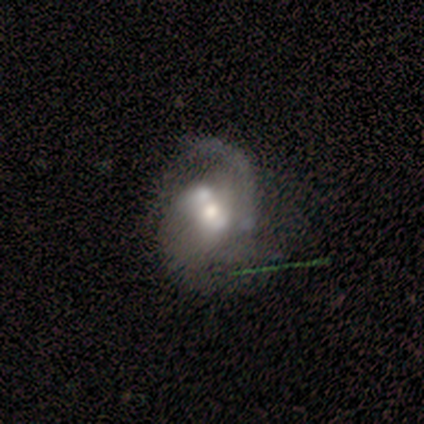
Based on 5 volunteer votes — smooth-or-featured: featured or disk: 60% | smooth: 40% | star or artifact: 0%
  disk-edge-on: no: 100% | yes: 0%
    bar: no: 67% | weak: 33% | strong: 0%
    has-spiral-arms: yes: 67% | no: 33%
      spiral-winding: medium: 100% | tight: 0% | loose: 0%
      spiral-arm-count: 2: 50% (tied) | can't tell: 50% (tied) | 1: 0% | 3: 0% | 4: 0% | more than 4: 0%
    bulge-size: moderate: 67% | small: 33% | dominant: 0% | large: 0% | none: 0%
  merging: major disturbance: 40% (tied) | merger: 40% (tied) | none: 20% | minor disturbance: 0%